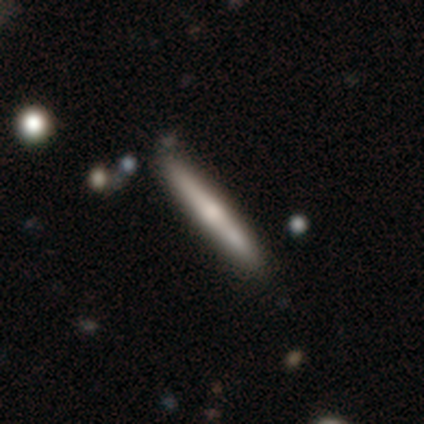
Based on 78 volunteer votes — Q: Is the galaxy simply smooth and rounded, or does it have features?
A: featured or disk — 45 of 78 (58%).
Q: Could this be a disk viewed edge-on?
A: yes — 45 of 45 (100%).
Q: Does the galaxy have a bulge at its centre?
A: rounded — 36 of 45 (80%).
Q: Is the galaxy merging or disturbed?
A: none — 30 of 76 (39%).